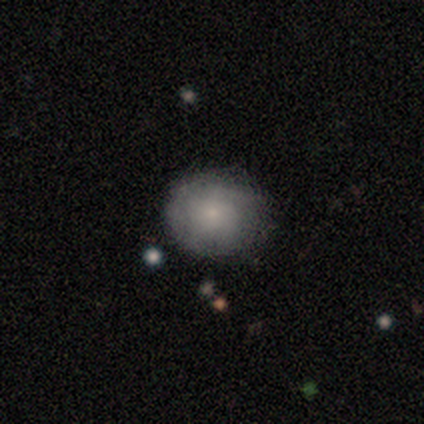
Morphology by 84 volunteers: A smooth galaxy with no disk features (65%) that is round (85%).

Vote fractions:
- Smooth or featured? smooth: 65% / featured or disk: 31% / star or artifact: 4%
- How rounded? round: 85% / in between: 15% / cigar-shaped: 0%
- Merging? none: 73% / minor disturbance: 21% / major disturbance: 6% / merger: 0%